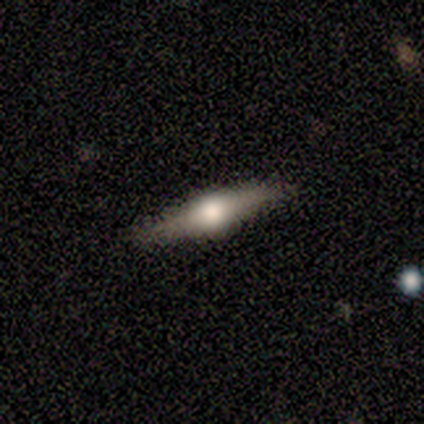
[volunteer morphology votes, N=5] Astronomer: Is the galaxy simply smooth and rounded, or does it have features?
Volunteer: featured or disk — 80%.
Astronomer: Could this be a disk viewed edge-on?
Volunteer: yes — 100%.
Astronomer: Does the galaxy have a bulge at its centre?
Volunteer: rounded — 100%.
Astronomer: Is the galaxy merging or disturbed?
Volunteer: none — 100%.